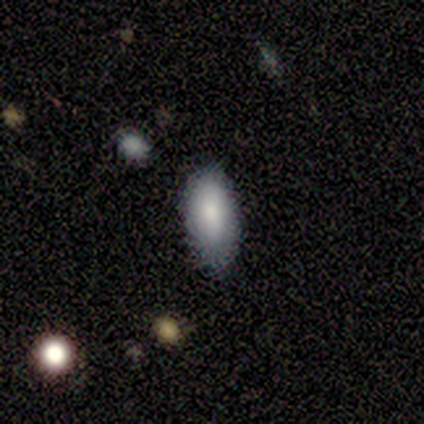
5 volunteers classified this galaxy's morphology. Overall: smooth (100%). How rounded: in between (80%). Merging: none (60%; minor disturbance 40%).